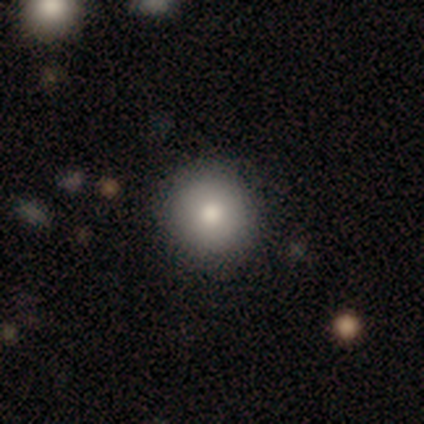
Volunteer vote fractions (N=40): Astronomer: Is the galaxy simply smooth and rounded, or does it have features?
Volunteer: smooth — 72%.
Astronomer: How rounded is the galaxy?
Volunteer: round — 93%.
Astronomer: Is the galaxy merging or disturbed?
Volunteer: none — 83%.